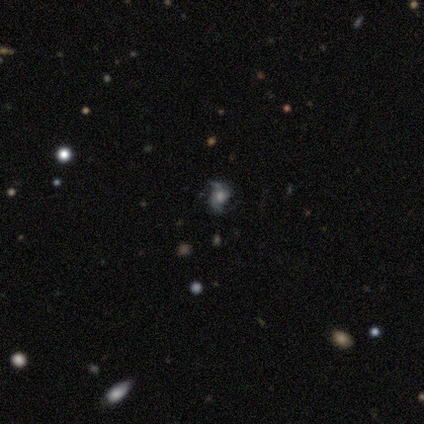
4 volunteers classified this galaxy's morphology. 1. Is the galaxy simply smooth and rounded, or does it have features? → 75% featured or disk, 25% star or artifact, 0% smooth.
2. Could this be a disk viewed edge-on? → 100% no, 0% yes.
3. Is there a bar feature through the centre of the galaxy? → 67% no, 33% strong, 0% weak.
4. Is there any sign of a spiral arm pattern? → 100% yes, 0% no.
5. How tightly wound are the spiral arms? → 67% loose, 33% medium, 0% tight.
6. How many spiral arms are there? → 100% 2, 0% 1, 0% 3, 0% 4, 0% more than 4, 0% can't tell.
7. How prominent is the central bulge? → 67% small, 33% large, 0% dominant, 0% moderate, 0% none.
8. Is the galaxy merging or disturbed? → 100% none, 0% minor disturbance, 0% major disturbance, 0% merger.